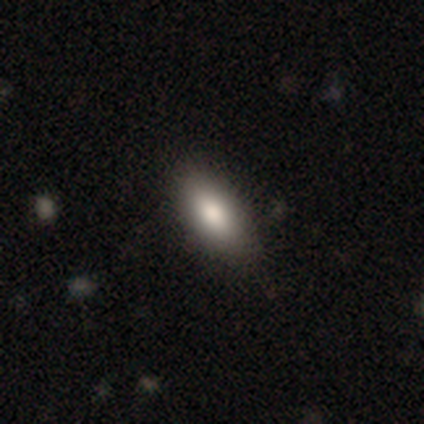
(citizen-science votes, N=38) This appears to be a smooth galaxy with no disk features (87%) that is in between round and cigar-shaped (91%). Merging: none (86%).